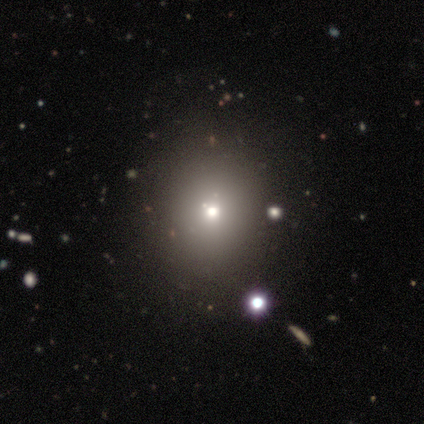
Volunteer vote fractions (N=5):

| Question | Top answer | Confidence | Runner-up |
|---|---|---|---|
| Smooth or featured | smooth | 60% | featured or disk (20%) |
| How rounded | in between | 67% | round (33%) |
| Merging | none | 100% | — |